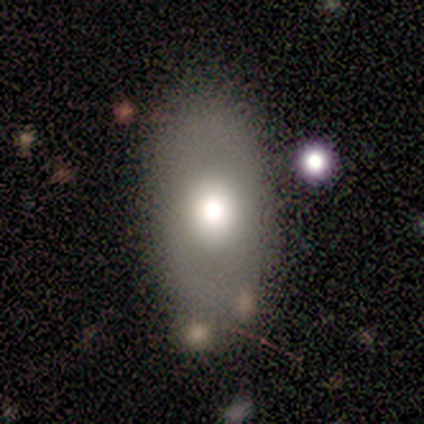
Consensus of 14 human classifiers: Smooth or featured? smooth (50%)
How rounded? in between (86%)
Merging? none (83%)